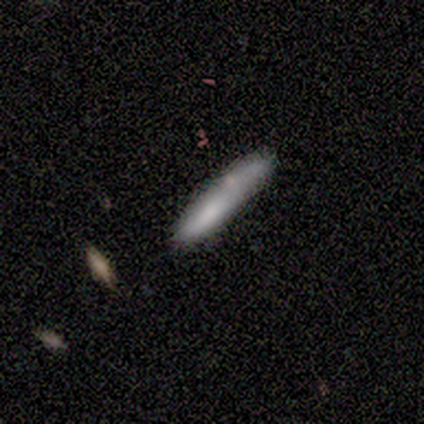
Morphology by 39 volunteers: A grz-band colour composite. It shows a smooth galaxy with no disk features (64%) that is cigar-shaped (96%). Merging: none (56%).